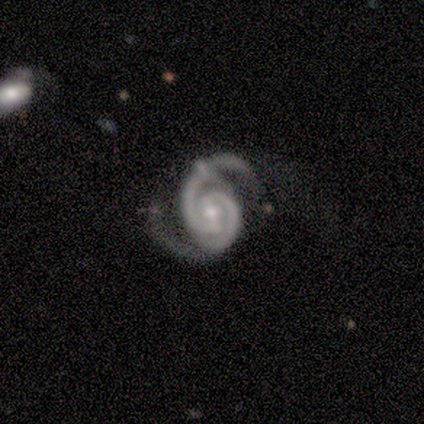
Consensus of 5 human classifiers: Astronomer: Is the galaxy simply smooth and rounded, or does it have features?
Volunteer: featured or disk — 100%.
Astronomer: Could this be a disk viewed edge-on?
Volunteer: no — 100%.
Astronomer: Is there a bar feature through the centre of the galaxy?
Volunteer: weak — 60% (runner-up: strong, 40%).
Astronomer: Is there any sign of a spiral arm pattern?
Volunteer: yes — 100%.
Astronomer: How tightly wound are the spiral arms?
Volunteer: medium — 60% (runner-up: tight, 40%).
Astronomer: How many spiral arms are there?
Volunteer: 2 — 100%.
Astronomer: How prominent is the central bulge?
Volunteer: moderate — 60% (runner-up: small, 40%).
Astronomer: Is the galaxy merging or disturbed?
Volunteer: none — 40% (runner-up: minor disturbance, 20%).